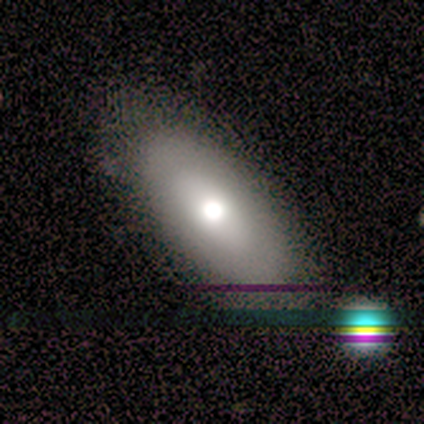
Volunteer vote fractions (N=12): This appears to be a smooth galaxy with no disk features (67%) that is in between round and cigar-shaped (88%). Merging: none (73%).